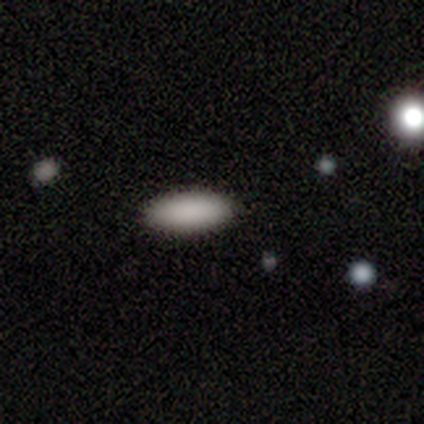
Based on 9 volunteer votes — A smooth galaxy with no disk features (89%) that is in between round and cigar-shaped (88%). Merging: none (100%).